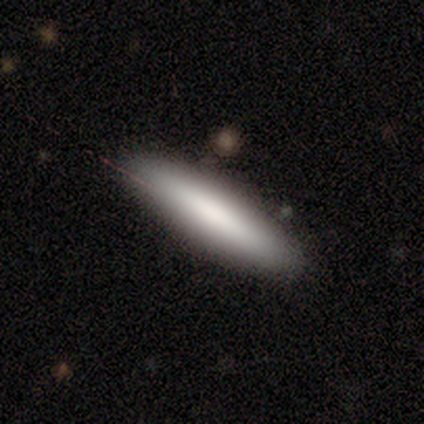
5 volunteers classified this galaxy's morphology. Volunteers were most divided on "smooth or featured": smooth: 80%, star or artifact: 20%, featured or disk: 0%. More confident: how rounded — cigar-shaped (100%); merging — none (100%).